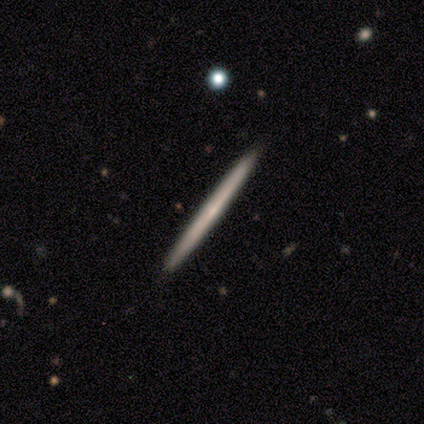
Morphology: type=featured or disk (62%); edge-on=yes (100%); edge-on bulge=none (60%); merging=none (75%).